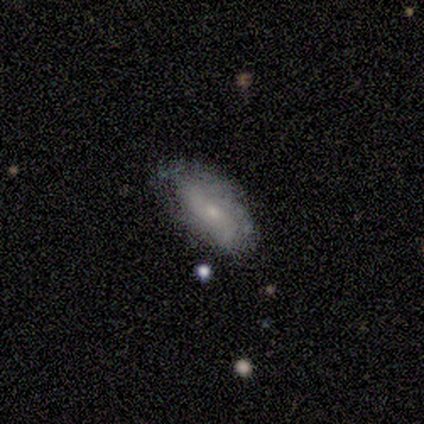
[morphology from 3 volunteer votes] A smooth galaxy with no disk features (67%) that is in between round and cigar-shaped (100%). Merging: none (100%).